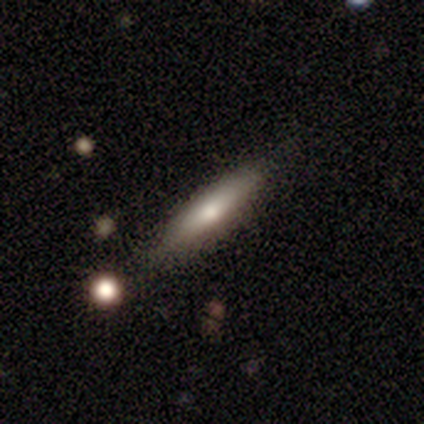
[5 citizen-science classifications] A smooth galaxy with no disk features (60%) that is cigar-shaped (67%).

Vote fractions:
- Smooth or featured? smooth: 60% / featured or disk: 40% / star or artifact: 0%
- How rounded? cigar-shaped: 67% / in between: 33% / round: 0%
- Merging? none: 80% / minor disturbance: 20% / major disturbance: 0% / merger: 0%